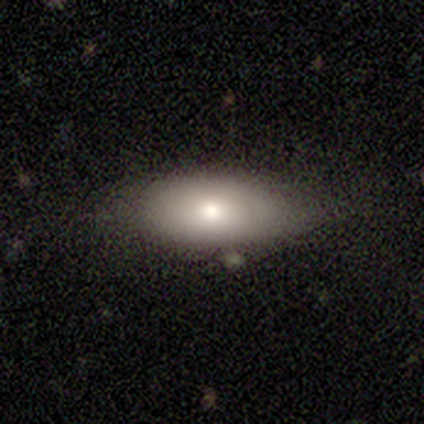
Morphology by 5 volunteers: This appears to be a smooth galaxy with no disk features (80%) that is in between round and cigar-shaped (100%). Merging: none (60%).